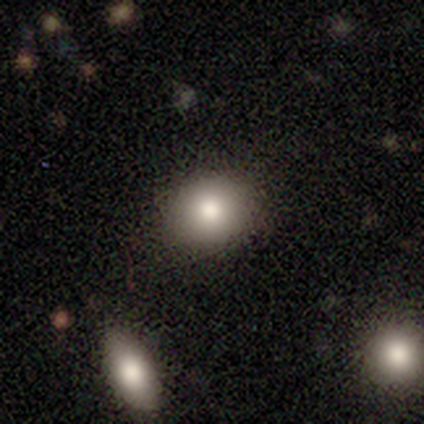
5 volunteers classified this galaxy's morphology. A smooth galaxy with no disk features (100%) that is round (60%). Merging: none (100%).